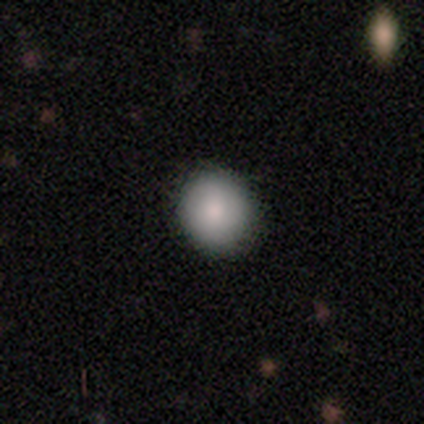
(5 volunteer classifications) Smooth or featured: smooth — 80% (featured or disk — 20%)
How rounded: round — 50% (tied with in between — 50%)
Merging: none — 80% (minor disturbance — 20%)